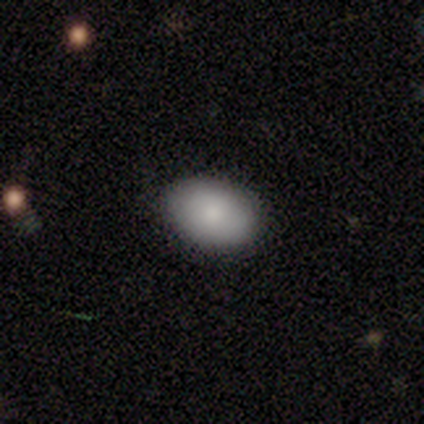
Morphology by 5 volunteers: Q: Smooth or featured?
A: smooth (100%)
Q: How rounded?
A: in between (80%); runner-up: round (20%)
Q: Merging?
A: none (100%)